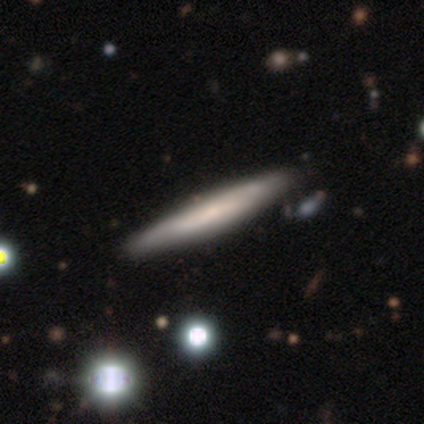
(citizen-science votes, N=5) smooth_or_featured: smooth (p=0.80) [alt: featured or disk p=0.20]
how_rounded: cigar-shaped (p=1.00)
merging: none (p=1.00)